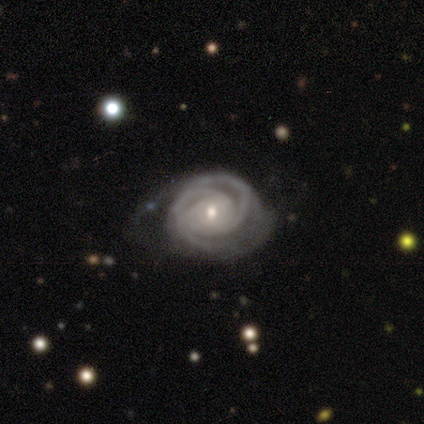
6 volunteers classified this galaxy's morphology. This is clearly a featured or disk galaxy (83%). It is clearly not viewed edge-on (100%). Bar: likely no (60%). Spiral arm pattern: clearly yes (100%). Spiral arm count: marginally can't tell (40%). Spiral winding: clearly tight (100%). Central bulge: likely small (60%). Merging: likely none (60%).